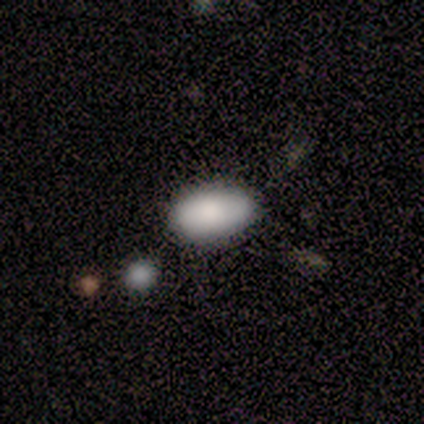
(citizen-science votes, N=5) Smooth or featured: smooth — 80% (featured or disk — 20%)
How rounded: in between — 100%
Merging: none — 80% (minor disturbance — 20%)